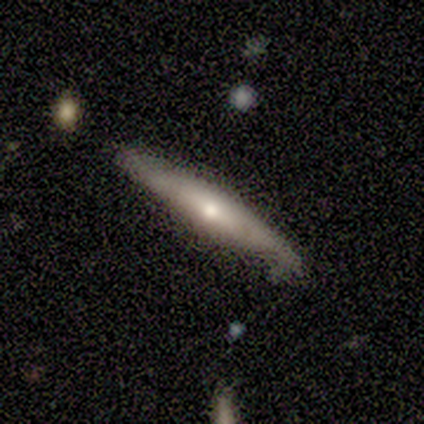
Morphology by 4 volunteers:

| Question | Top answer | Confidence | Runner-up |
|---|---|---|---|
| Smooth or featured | smooth | 50% | tied: featured or disk (50%) |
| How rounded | cigar-shaped | 100% | — |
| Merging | none | 50% | minor disturbance (25%) |